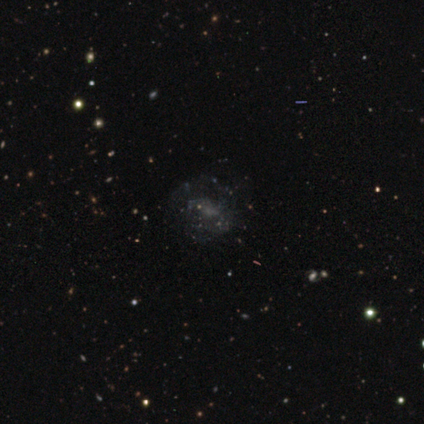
Smooth or featured: star or artifact — 60% (featured or disk — 40%)